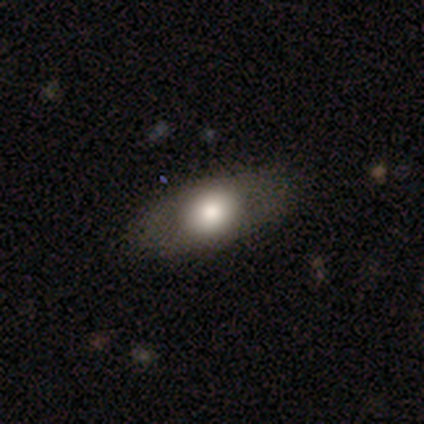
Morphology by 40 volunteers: Smooth or featured?
  - smooth: 65% *
  - featured or disk: 32%
  - star or artifact: 2%
How rounded?
  - in between: 77% *
  - round: 19%
  - cigar-shaped: 4%
Merging?
  - none: 74% *
  - minor disturbance: 3%
  - major disturbance: 3%
  - merger: 0%